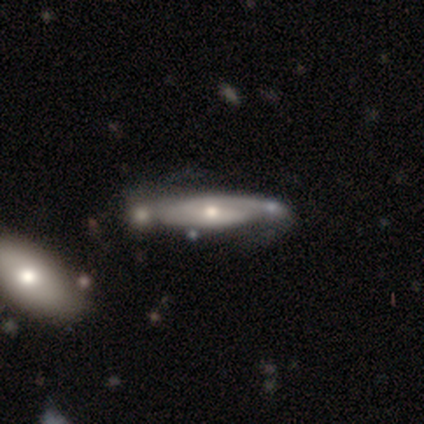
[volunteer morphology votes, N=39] featured or disk 72%, smooth 28%, star or artifact 0%. Down the decision tree: edge-on disk — no (68%); bar — no (58%); spiral arms — yes (79%); spiral arm count — 2 (53%); spiral winding — tight (47%); bulge size — moderate (63%); merging — none (28%).